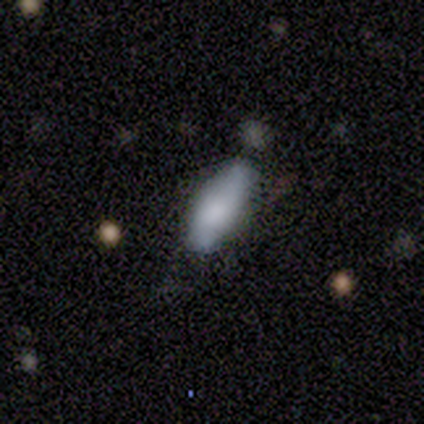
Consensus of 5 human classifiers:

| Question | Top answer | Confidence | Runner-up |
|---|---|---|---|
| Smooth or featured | smooth | 80% | star or artifact (20%) |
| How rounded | in between | 75% | cigar-shaped (25%) |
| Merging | none | 100% | — |